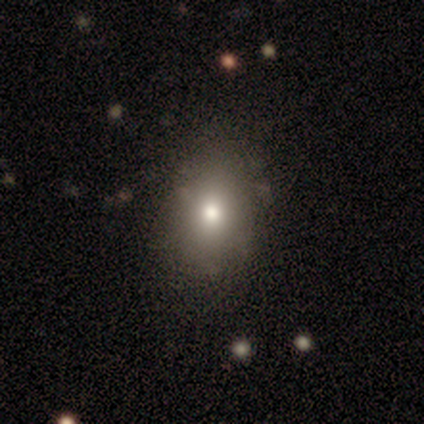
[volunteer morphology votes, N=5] Q: Smooth or featured?
A: smooth (60%); runner-up: star or artifact (40%)
Q: How rounded?
A: in between (100%)
Q: Merging?
A: none (100%)